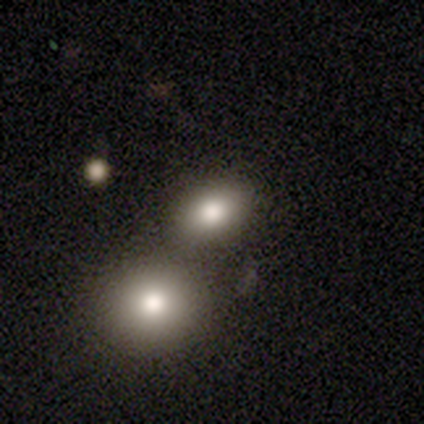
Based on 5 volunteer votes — This is clearly a smooth galaxy (80%). How rounded: possibly round (50%, tied with in between). Merging: possibly none (50%).